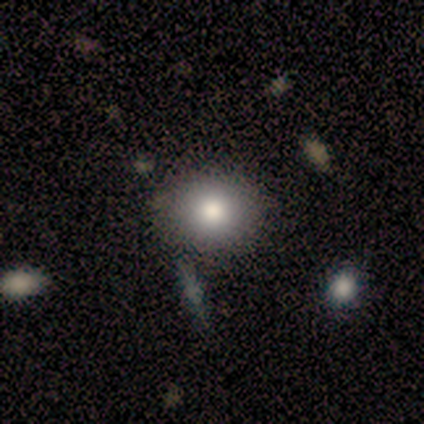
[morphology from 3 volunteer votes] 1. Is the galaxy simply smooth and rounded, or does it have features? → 67% smooth, 33% featured or disk, 0% star or artifact.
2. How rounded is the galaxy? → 100% in between, 0% round, 0% cigar-shaped.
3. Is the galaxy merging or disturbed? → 100% none, 0% minor disturbance, 0% major disturbance, 0% merger.